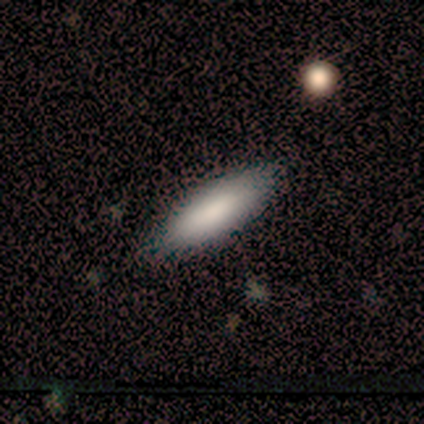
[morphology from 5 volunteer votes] Overall: smooth (100%). How rounded: in between (80%). Merging: none (80%).